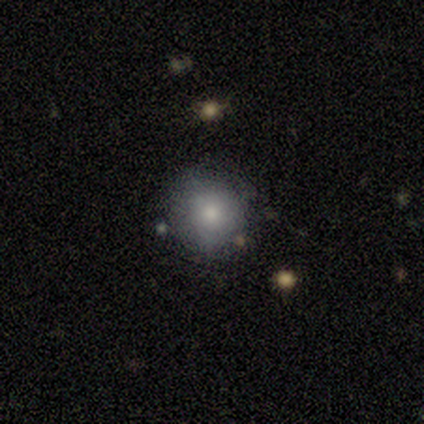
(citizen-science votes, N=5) smooth_or_featured: smooth (p=0.80) [alt: featured or disk p=0.20]
how_rounded: round (p=1.00)
merging: none (p=0.80) [alt: minor disturbance p=0.20]